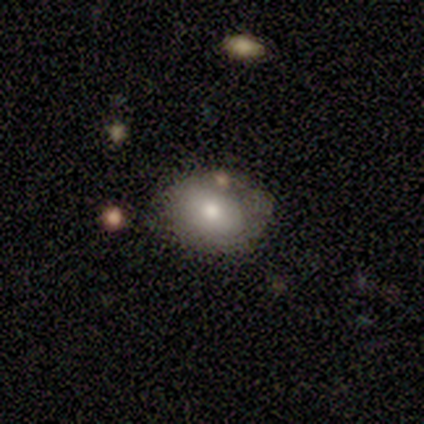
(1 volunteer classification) Overall: smooth (100%). How rounded: in between (100%). Merging: minor disturbance (100%).